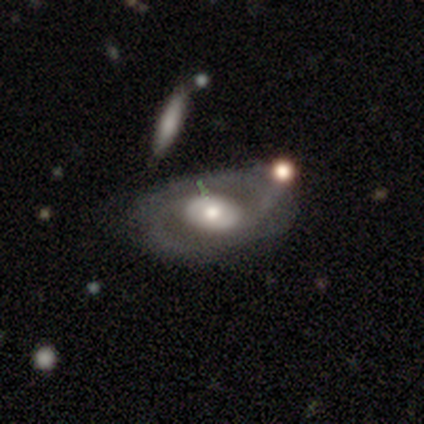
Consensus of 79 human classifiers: This is likely a featured or disk galaxy (73%). It is clearly not viewed edge-on (95%). Bar: likely no (78%). Spiral arm pattern: possibly yes (53%). Spiral arm count: likely 2 (72%). Spiral winding: possibly medium (52%). Central bulge: possibly moderate (58%). Merging: marginally merger (27%).